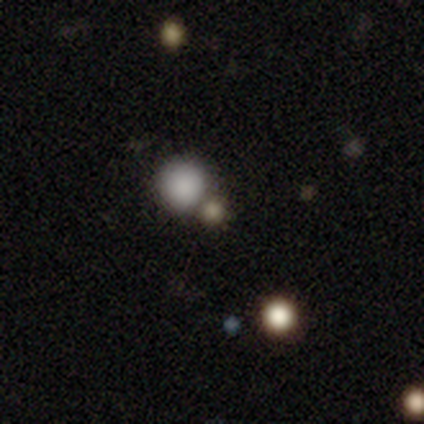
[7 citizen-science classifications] Smooth or featured: smooth — 86% (star or artifact — 14%)
How rounded: round — 100%
Merging: none — 50% (merger — 33%)